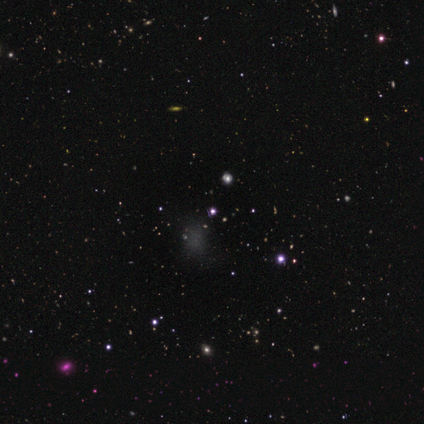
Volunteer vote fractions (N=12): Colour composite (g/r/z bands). It shows a smooth galaxy with no disk features (50%, tied with star or artifact) that is in between round and cigar-shaped (67%). Merging: minor disturbance (50%).